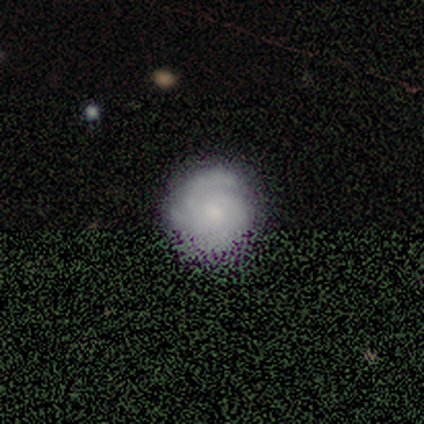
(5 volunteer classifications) Volunteers were most divided on "smooth or featured" (2-way tie): featured or disk: 40%, star or artifact: 40%, smooth: 20%; "spiral arms" (2-way tie): yes: 50%, no: 50%; "bulge size" (2-way tie): moderate: 50%, small: 50%, dominant: 0%, large: 0%, none: 0%. More confident: edge-on disk — no (100%); bar — no (100%); spiral winding — tight (100%); spiral arm count — 3 (100%); merging — none (100%).